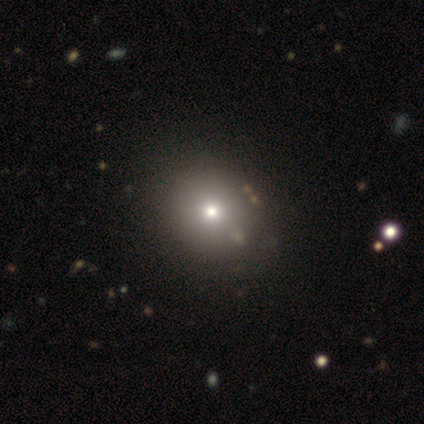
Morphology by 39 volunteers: Volunteers were most divided on "merging": none: 52%, minor disturbance: 3%, merger: 3%, major disturbance: 0%. More confident: how rounded — round (85%); smooth or featured — smooth (69%).